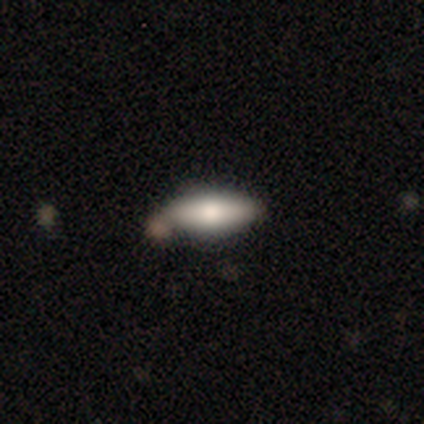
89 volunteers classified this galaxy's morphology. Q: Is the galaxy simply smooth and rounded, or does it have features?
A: smooth — 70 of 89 (79%).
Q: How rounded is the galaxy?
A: in between — 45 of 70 (64%).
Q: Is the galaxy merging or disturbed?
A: none — 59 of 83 (71%).